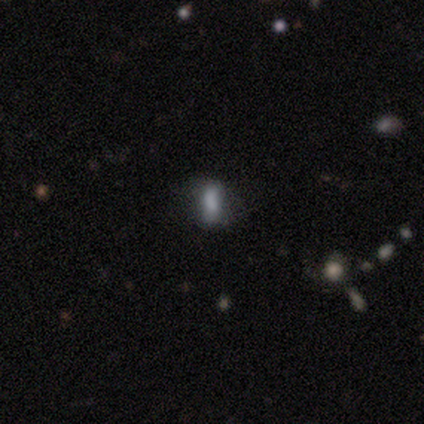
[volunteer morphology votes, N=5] star or artifact 60%, smooth 20%, featured or disk 20%.